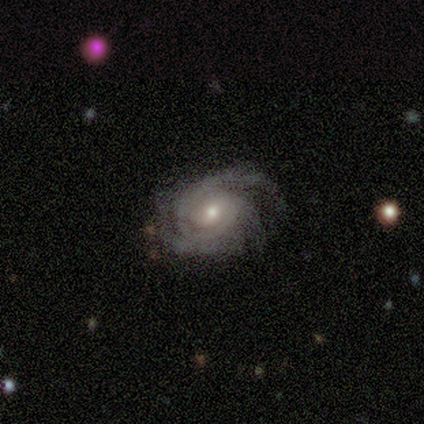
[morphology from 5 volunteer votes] A featured or disk galaxy (100%) with no bar (80%), 3 (40%) tight (60%) spiral arms (100%) and a moderate central bulge (60%). Merging: none (60%).